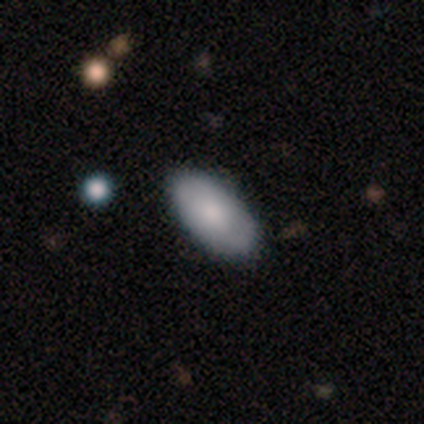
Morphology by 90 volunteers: smooth_or_featured: smooth (p=0.79) [alt: featured or disk p=0.18]
how_rounded: in between (p=0.92) [alt: cigar-shaped p=0.06]
merging: none (p=0.91) [alt: minor disturbance p=0.07]